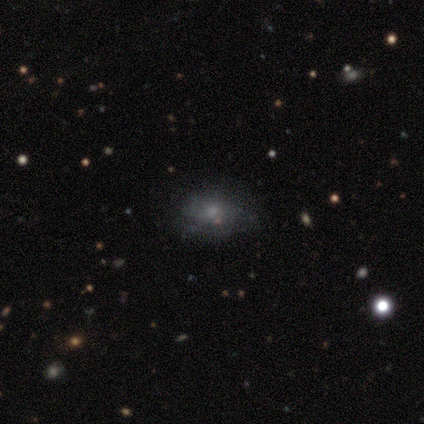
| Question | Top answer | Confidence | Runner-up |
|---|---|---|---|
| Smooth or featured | smooth | 51% | featured or disk (37%) |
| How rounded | in between | 71% | round (29%) |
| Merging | none | 64% | minor disturbance (31%) |